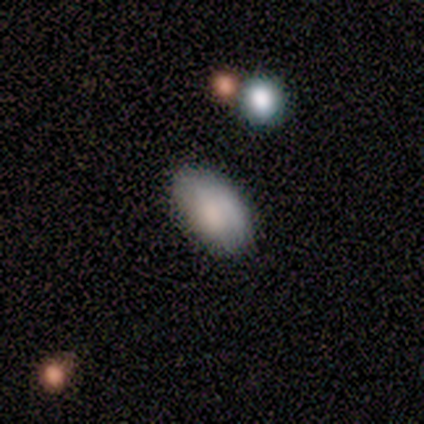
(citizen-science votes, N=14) This appears to be a smooth galaxy with no disk features (100%) that is in between round and cigar-shaped (86%). Merging: none (64%).